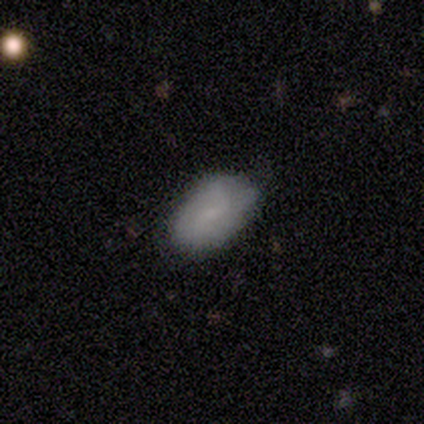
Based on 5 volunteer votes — A featured or disk galaxy (60%) with no bar (67%), no spiral arms (67%) and a small central bulge (67%). Merging: none (60%).